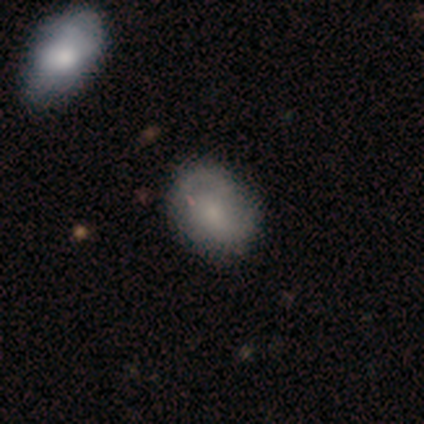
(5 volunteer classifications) Smooth or featured: featured or disk — 60% (smooth — 40%)
Edge-on disk: no — 100%
Bar: no — 100%
Spiral arms: yes — 67% (no — 33%)
Spiral winding: tight — 50% (tied with medium — 50%)
Spiral arm count: 2 — 50% (tied with can't tell — 50%)
Bulge size: moderate — 33% (tied with small — 33%; none — 33%)
Merging: none — 60% (minor disturbance — 20%)